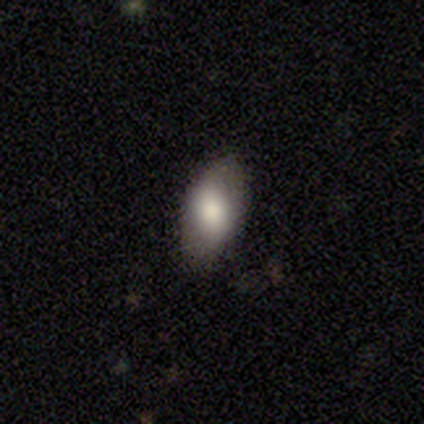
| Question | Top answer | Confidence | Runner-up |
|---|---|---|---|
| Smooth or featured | smooth | 70% | featured or disk (18%) |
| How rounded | in between | 93% | round (7%) |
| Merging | none | 83% | minor disturbance (11%) |